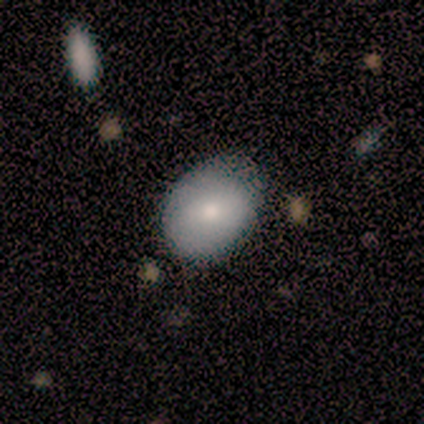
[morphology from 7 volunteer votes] Volunteers were most divided on "smooth or featured": smooth: 71%, star or artifact: 29%, featured or disk: 0%. More confident: how rounded — in between (80%); merging — none (80%).